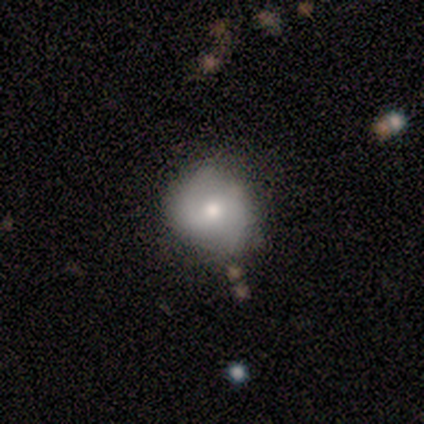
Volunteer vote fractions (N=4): Smooth or featured: featured or disk — 50% (smooth — 25%)
Edge-on disk: no — 100%
Bar: weak — 50% (tied with no — 50%)
Spiral arms: yes — 100%
Spiral winding: tight — 50% (tied with loose — 50%)
Spiral arm count: 2 — 50% (tied with 4 — 50%)
Bulge size: moderate — 100%
Merging: none — 33% (tied with minor disturbance — 33%; major disturbance — 33%)